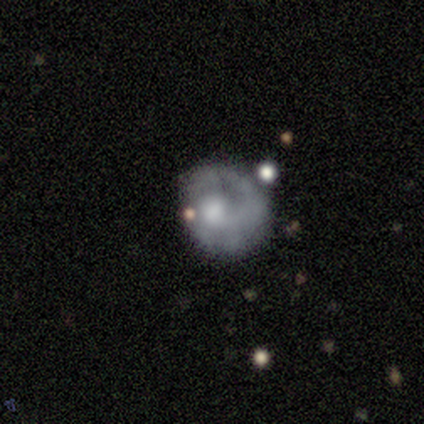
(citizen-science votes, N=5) This is likely a featured or disk galaxy (60%). It is clearly not viewed edge-on (100%). Bar: likely no (67%). Spiral arm pattern: clearly yes (100%). Spiral arm count: clearly 1 (100%). Spiral winding: likely loose (67%). Central bulge: marginally moderate (33%, tied with small and none). Merging: likely none (60%).